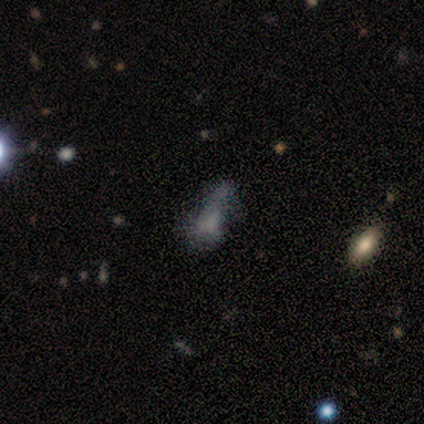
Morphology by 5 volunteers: Volunteers were most divided on "smooth or featured" (2-way tie): featured or disk: 40%, star or artifact: 40%, smooth: 20%; "merging" (3-way tie): none: 33%, major disturbance: 33%, merger: 33%, minor disturbance: 0%. More confident: edge-on disk — no (100%); bar — no (100%); spiral arms — no (100%); bulge size — none (100%).